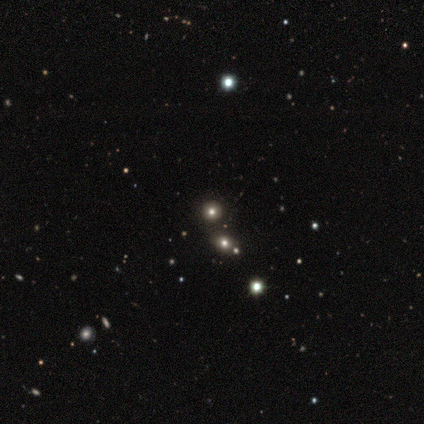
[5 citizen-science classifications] Q: Smooth or featured?
A: smooth (60%); runner-up: featured or disk (20%)
Q: How rounded?
A: round (100%)
Q: Merging?
A: none (50%); runner-up: minor disturbance (25%)